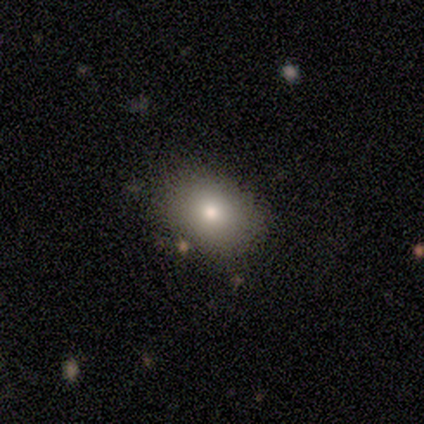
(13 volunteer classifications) Q: Smooth or featured?
A: smooth (77%); runner-up: star or artifact (15%)
Q: How rounded?
A: in between (60%); runner-up: round (40%)
Q: Merging?
A: none (73%); runner-up: minor disturbance (18%)